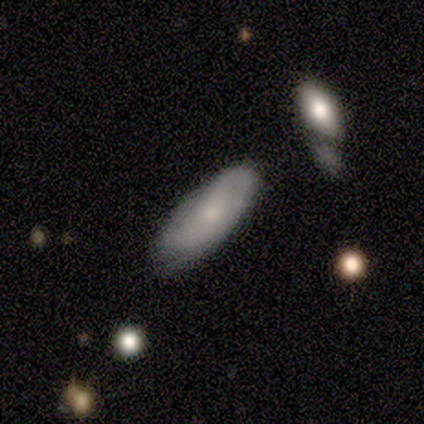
Q: Smooth or featured?
A: smooth (60%); runner-up: featured or disk (40%)
Q: How rounded?
A: cigar-shaped (67%); runner-up: in between (33%)
Q: Merging?
A: none (60%); runner-up: minor disturbance (40%)